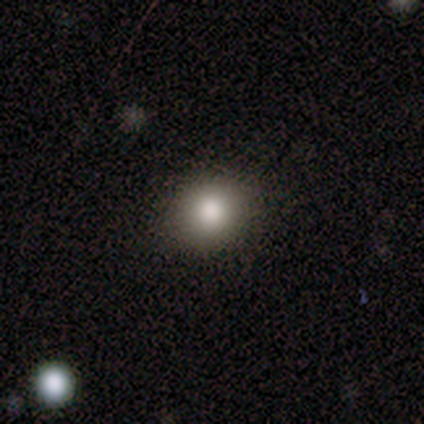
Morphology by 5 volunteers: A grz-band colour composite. It shows a smooth galaxy with no disk features (100%) that is round (100%). Merging: none (80%).